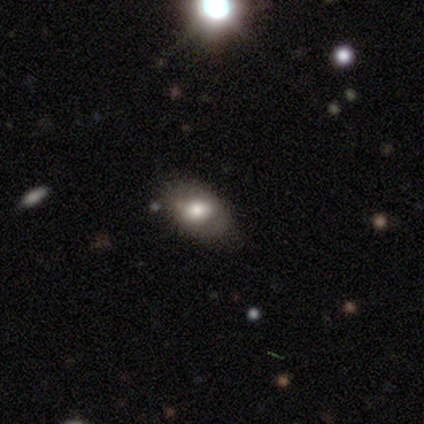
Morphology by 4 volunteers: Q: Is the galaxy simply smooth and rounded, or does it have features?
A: smooth — 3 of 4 (75%).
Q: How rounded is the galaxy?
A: in between — 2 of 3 (67%).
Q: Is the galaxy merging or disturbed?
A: none — 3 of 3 (100%).